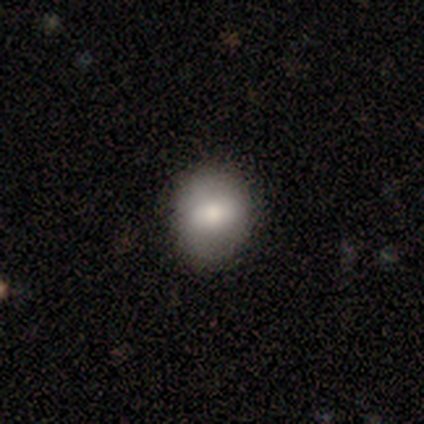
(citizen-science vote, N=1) This is clearly a smooth galaxy (100%). How rounded: clearly in between (100%). Merging: clearly none (100%).